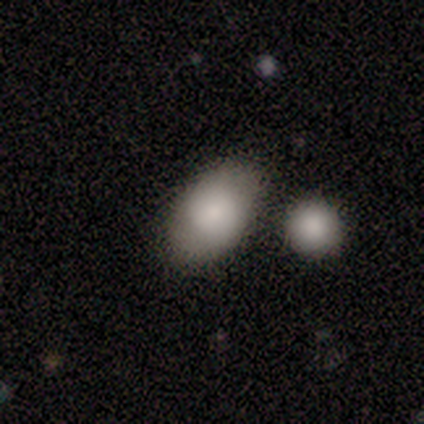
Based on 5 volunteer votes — Smooth or featured?
  - smooth: 100% *
  - featured or disk: 0%
  - star or artifact: 0%
How rounded?
  - in between: 100% *
  - round: 0%
  - cigar-shaped: 0%
Merging?
  - none: 80% *
  - minor disturbance: 20%
  - major disturbance: 0%
  - merger: 0%